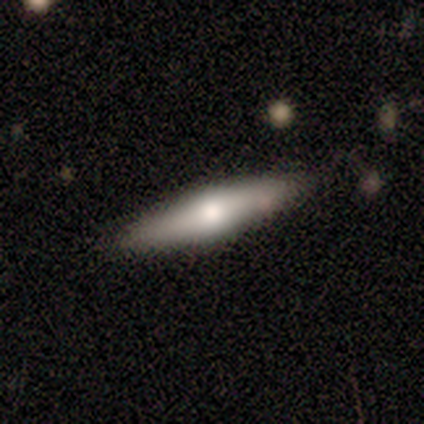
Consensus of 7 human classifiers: This is possibly a featured or disk galaxy (57%). It is clearly viewed edge-on (100%). Edge-on bulge: clearly rounded (100%). Merging: possibly none (57%).